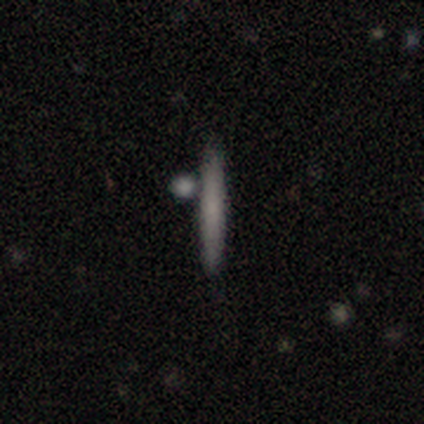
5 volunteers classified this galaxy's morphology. This appears to be a smooth galaxy with no disk features (60%) that is cigar-shaped (100%). Merging: none (80%).